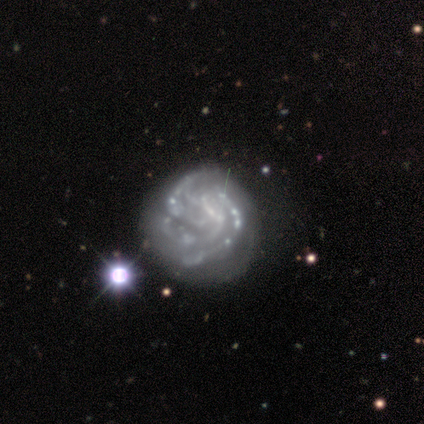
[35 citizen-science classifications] Morphology: type=featured or disk (83%); edge-on=no (100%); bar=no (66%); spiral arms=yes (83%); winding=tight (67%); arm count=3 (29%, tied with 4); bulge=none (76%); merging=none (52%).